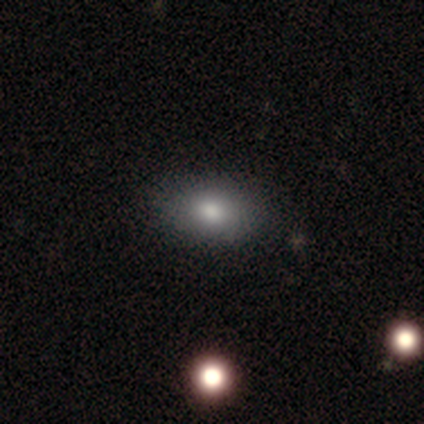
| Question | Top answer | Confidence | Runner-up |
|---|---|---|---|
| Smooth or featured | smooth | 100% | — |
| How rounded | in between | 100% | — |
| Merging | none | 100% | — |